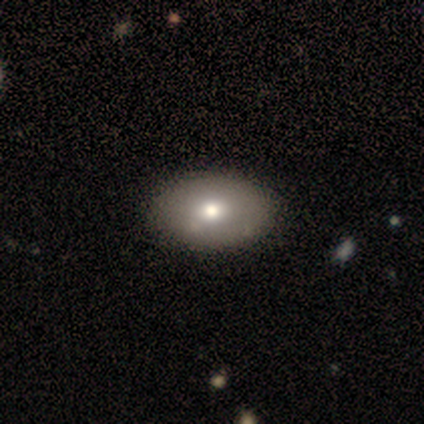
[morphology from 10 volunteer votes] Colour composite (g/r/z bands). It shows a smooth galaxy with no disk features (70%) that is in between round and cigar-shaped (100%). Merging: none (88%).